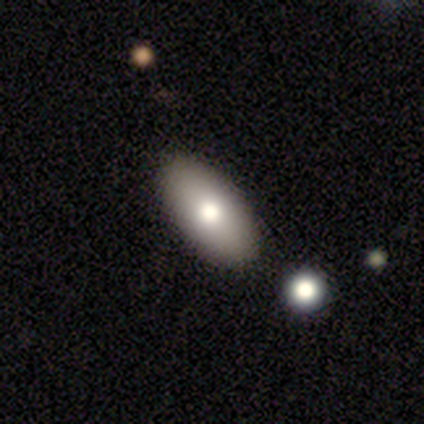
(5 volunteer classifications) Volunteers were most divided on "smooth or featured": smooth: 60%, featured or disk: 40%, star or artifact: 0%. More confident: how rounded — in between (100%); merging — none (100%).